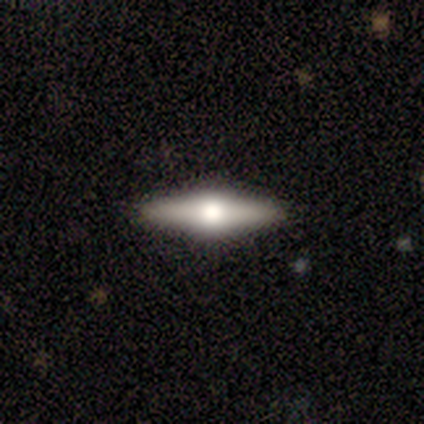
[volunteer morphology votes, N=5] type=featured or disk (60%); edge-on=yes (67%); edge-on bulge=rounded (100%); merging=none (80%).